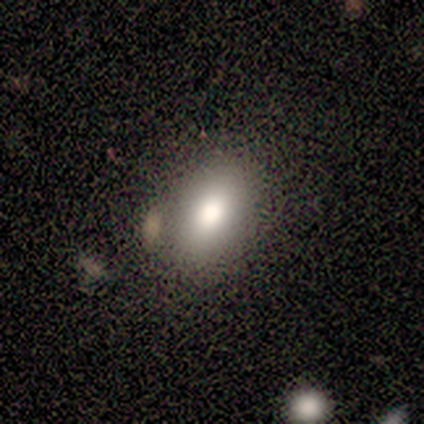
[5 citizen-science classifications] Q: Smooth or featured?
A: smooth (80%); runner-up: star or artifact (20%)
Q: How rounded?
A: in between (100%)
Q: Merging?
A: none (50%); runner-up: minor disturbance (25%)